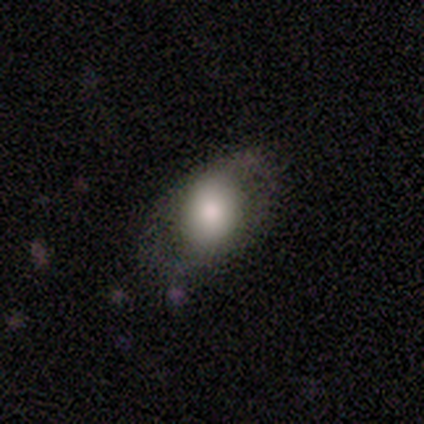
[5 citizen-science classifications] Q: Smooth or featured?
A: smooth (80%); runner-up: star or artifact (20%)
Q: How rounded?
A: round (50%); tied with: in between (50%)
Q: Merging?
A: none (100%)